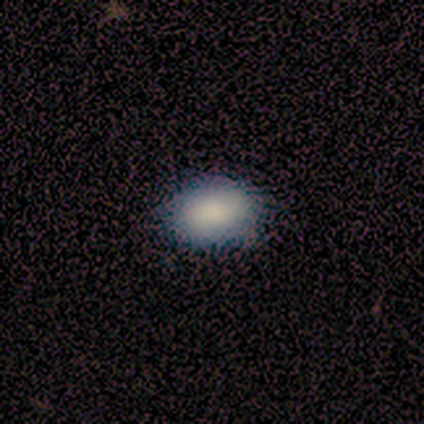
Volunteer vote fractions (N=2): This appears to be a smooth galaxy with no disk features (100%) that is in between round and cigar-shaped (100%). Merging: none (50%, tied with major disturbance).